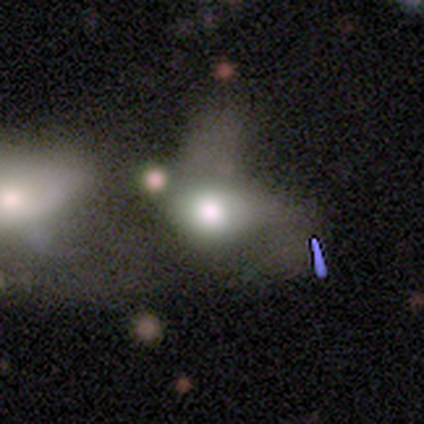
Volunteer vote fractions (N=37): smooth 46%, featured or disk 27%, star or artifact 27%. Down the decision tree: how rounded — in between (76%); merging — merger (41%).